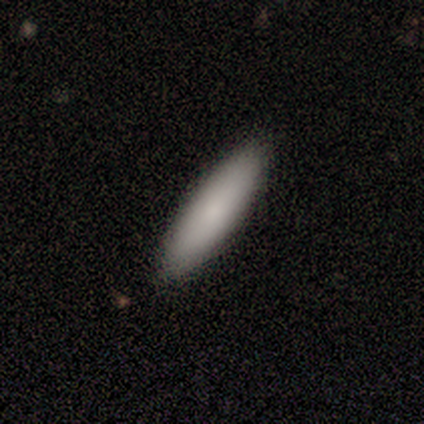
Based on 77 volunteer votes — smooth-or-featured: smooth: 88% | featured or disk: 9% | star or artifact: 3%
  how-rounded: cigar-shaped: 65% | in between: 35% | round: 0%
  merging: none: 63% | minor disturbance: 4% | major disturbance: 1% | merger: 1%